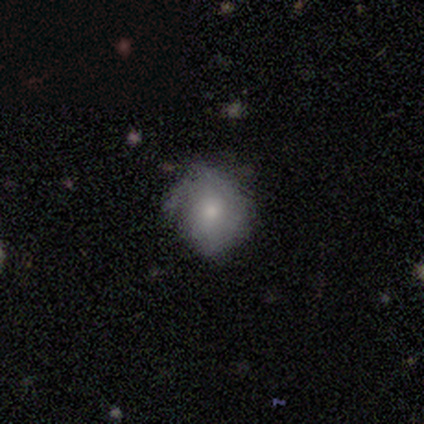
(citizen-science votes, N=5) Overall: featured or disk (60%; smooth 40%). Edge-on disk: no (100%). Bar: no (67%; weak 33%). Spiral arms: yes (67%; no 33%). Spiral arm count: can't tell (100%). Spiral winding: tight (50%, tied with loose). Bulge size: small (100%). Merging: none (80%).